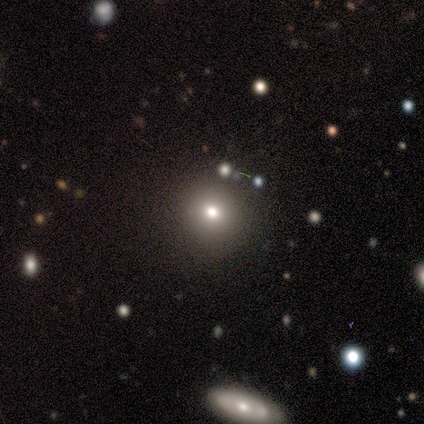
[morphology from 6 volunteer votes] Volunteers were most divided on "smooth or featured": smooth: 50%, star or artifact: 33%, featured or disk: 17%. More confident: how rounded — round (100%); merging — none (75%).